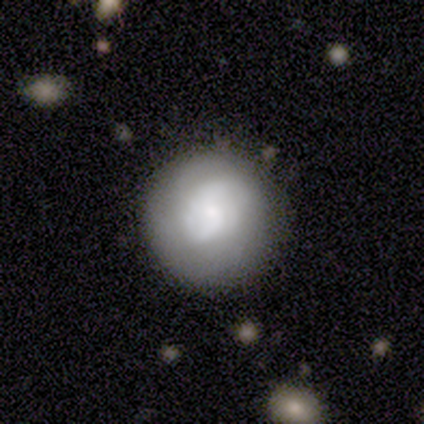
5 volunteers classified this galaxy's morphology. A smooth galaxy with no disk features (80%) that is round (100%).

Vote fractions:
- Smooth or featured? smooth: 80% / featured or disk: 20% / star or artifact: 0%
- How rounded? round: 100% / in between: 0% / cigar-shaped: 0%
- Merging? none: 60% / minor disturbance: 40% / major disturbance: 0% / merger: 0%